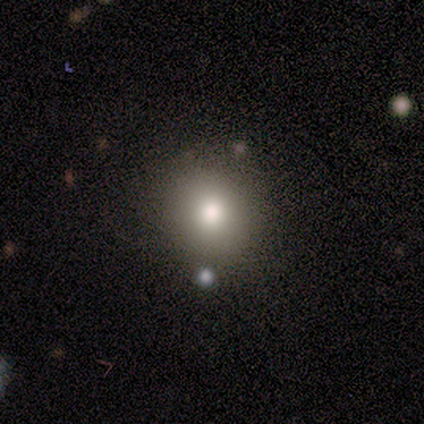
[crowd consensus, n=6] Overall: smooth (100%). How rounded: round (67%; in between 33%). Merging: none (83%).